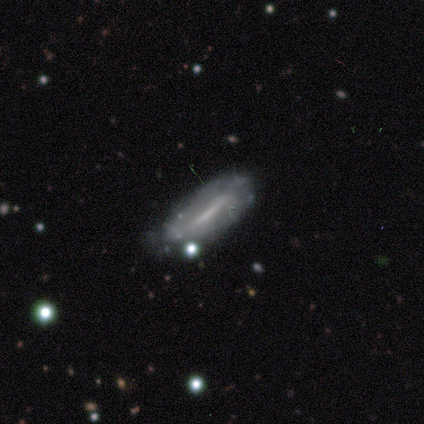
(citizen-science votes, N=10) Q: Smooth or featured?
A: featured or disk (60%); runner-up: smooth (40%)
Q: Edge-on disk?
A: yes (50%); tied with: no (50%)
Q: Edge-on bulge?
A: none (100%)
Q: Merging?
A: none (50%); runner-up: minor disturbance (40%)